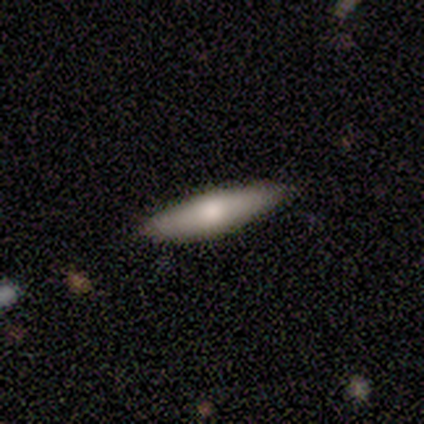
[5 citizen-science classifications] This is clearly a smooth galaxy (80%). How rounded: possibly in between (50%, tied with cigar-shaped). Merging: likely none (75%).